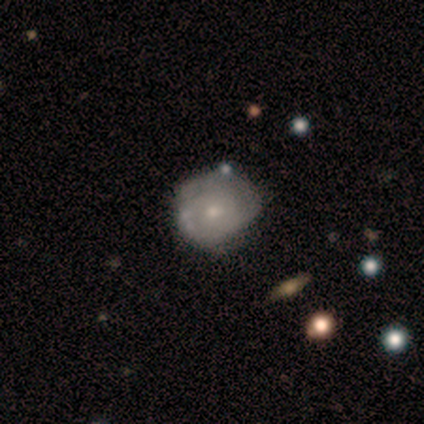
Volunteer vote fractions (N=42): This appears to be a featured or disk galaxy (67%) with no bar (93%), tight (65%) spiral arms (63%) and a small central bulge (52%). Merging: none (59%).